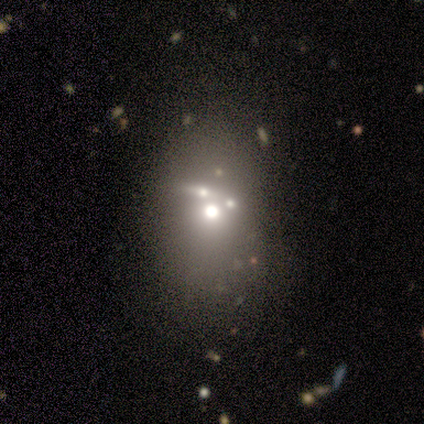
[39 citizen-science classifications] Volunteers were most divided on "how rounded": in between: 55%, round: 45%, cigar-shaped: 0%. Remaining: smooth or featured — smooth (51%); merging — none (45%).